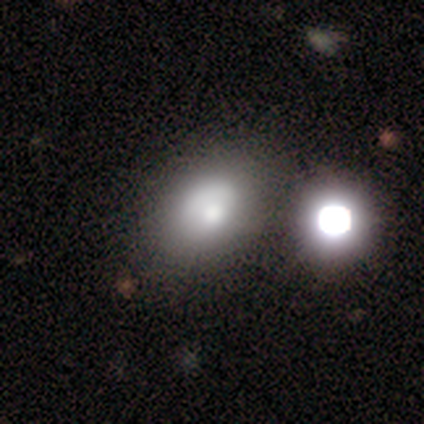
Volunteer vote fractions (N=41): Smooth or featured: smooth — 76% (star or artifact — 15%)
How rounded: in between — 77% (round — 23%)
Merging: none — 49% (minor disturbance — 17%)